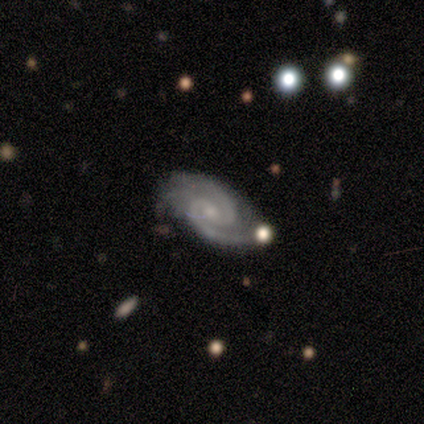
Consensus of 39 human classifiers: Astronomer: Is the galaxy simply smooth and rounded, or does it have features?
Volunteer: featured or disk — 92%.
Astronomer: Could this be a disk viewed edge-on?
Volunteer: no — 92%.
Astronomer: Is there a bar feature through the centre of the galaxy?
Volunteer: weak — 48%, tied with no at 48%.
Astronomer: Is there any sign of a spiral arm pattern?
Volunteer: yes — 100%.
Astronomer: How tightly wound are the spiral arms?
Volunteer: medium — 61% (runner-up: tight, 39%).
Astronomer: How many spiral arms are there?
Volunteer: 2 — 94%.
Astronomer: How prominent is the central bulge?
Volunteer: small — 73%.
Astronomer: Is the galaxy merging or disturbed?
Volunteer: none — 74%.